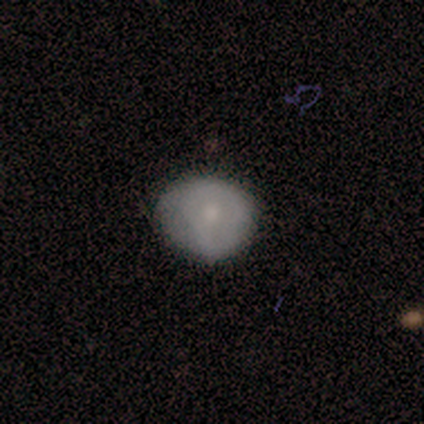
Smooth or featured? 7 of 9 (78%) said smooth. How rounded? 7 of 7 (100%) said round. Merging? 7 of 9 (78%) said none.